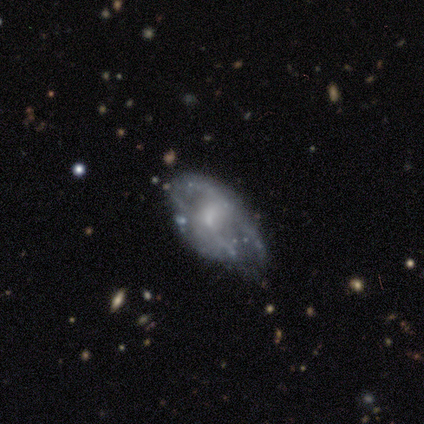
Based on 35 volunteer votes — Smooth or featured? 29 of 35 (83%) said featured or disk. Edge-on disk? 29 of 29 (100%) said no. Bar? 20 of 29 (69%) said no. Spiral arms? 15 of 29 (52%) said no. Bulge size? 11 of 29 (38%) said small. Merging? 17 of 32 (53%) said none.